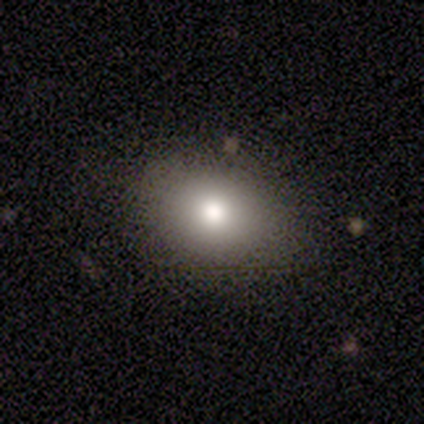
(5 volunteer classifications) This appears to be a smooth galaxy with no disk features (100%) that is in between round and cigar-shaped (60%). Merging: none (100%).